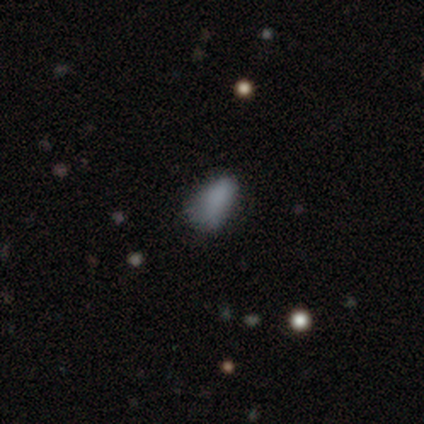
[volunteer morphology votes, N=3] smooth 67%, featured or disk 33%, star or artifact 0%. Down the decision tree: how rounded — in between (100%); merging — minor disturbance (67%).